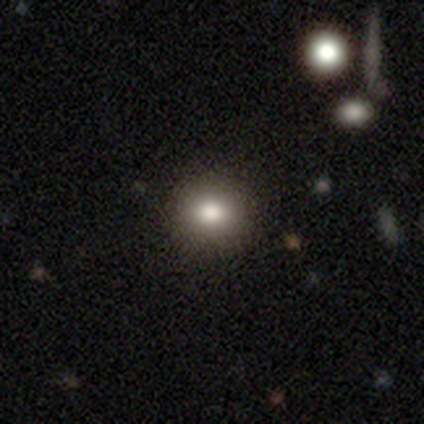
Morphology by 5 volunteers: Overall: smooth (100%). How rounded: round (100%). Merging: none (100%).